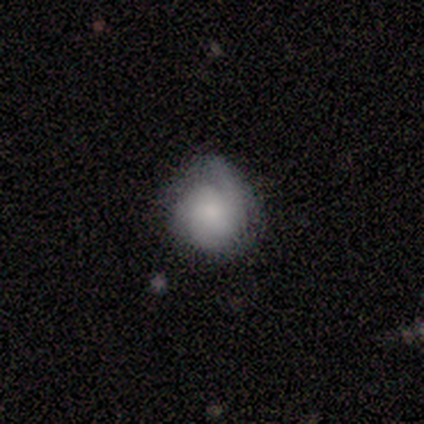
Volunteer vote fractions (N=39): A smooth galaxy with no disk features (49%) that is round (89%). Merging: none (57%).